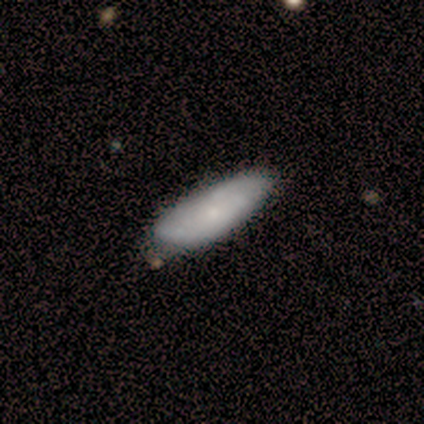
smooth_or_featured: smooth (p=0.80) [alt: star or artifact p=0.20]
how_rounded: cigar-shaped (p=0.75) [alt: in between p=0.25]
merging: none (p=0.75) [alt: minor disturbance p=0.25]